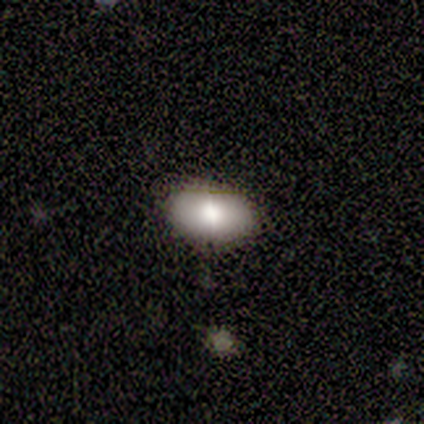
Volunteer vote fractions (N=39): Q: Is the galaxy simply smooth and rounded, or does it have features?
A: smooth — 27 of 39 (69%).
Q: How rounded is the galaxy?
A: in between — 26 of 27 (96%).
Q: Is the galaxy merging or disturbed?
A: none — 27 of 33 (82%).